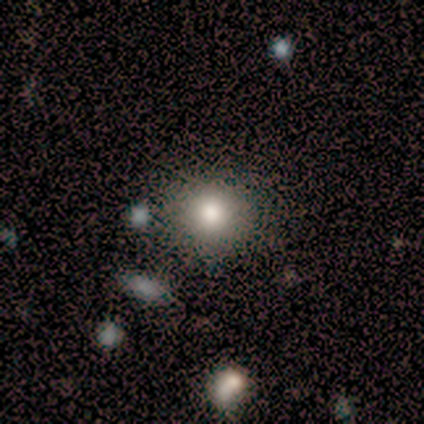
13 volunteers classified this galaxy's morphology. Smooth or featured: smooth — 77% (featured or disk — 15%)
How rounded: round — 80% (in between — 20%)
Merging: none — 92% (minor disturbance — 8%)